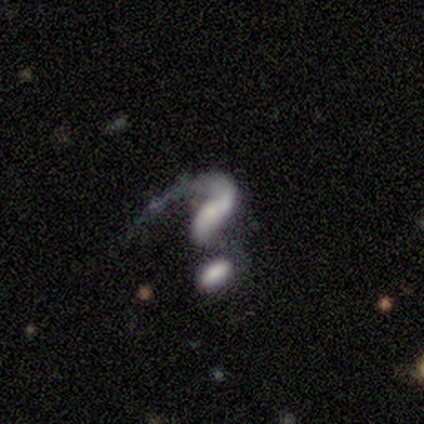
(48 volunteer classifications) Smooth or featured? 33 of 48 (69%) said featured or disk. Edge-on disk? 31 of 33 (94%) said no. Bar? 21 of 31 (68%) said no. Spiral arms? 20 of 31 (65%) said yes. Spiral winding? 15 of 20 (75%) said loose. Spiral arm count? 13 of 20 (65%) said 1. Bulge size? 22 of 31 (71%) said none. Merging? 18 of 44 (41%) said merger.